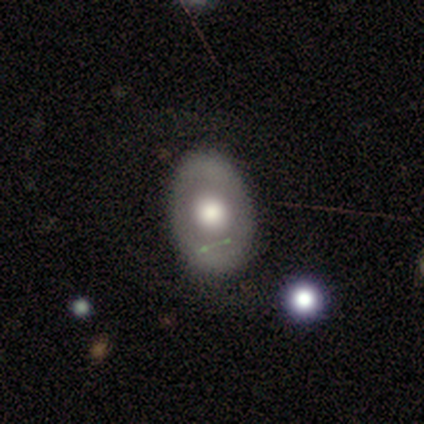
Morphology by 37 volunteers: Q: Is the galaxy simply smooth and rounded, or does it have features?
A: smooth — 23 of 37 (62%).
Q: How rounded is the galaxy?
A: in between — 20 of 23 (87%).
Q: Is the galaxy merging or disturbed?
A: none — 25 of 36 (69%).